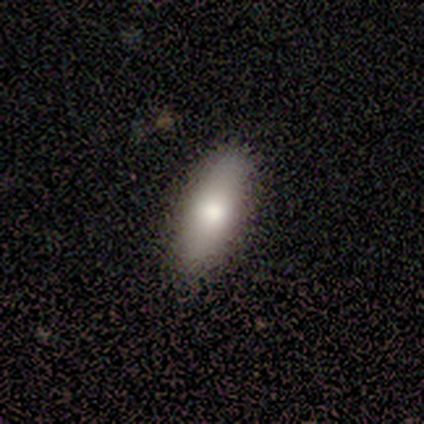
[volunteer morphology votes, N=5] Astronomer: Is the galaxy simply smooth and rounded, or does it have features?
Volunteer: smooth — 80%.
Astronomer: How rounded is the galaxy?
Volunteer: in between — 50%, tied with cigar-shaped at 50%.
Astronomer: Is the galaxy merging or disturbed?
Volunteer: none — 60% (runner-up: minor disturbance, 40%).